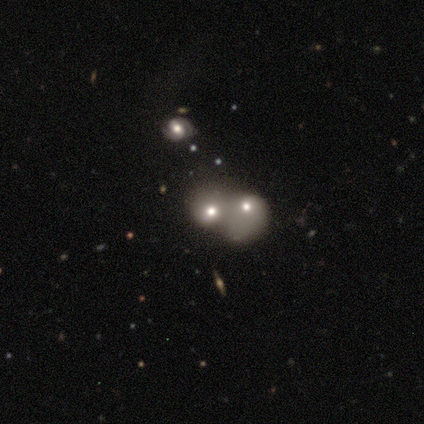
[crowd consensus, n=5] Smooth or featured? smooth (80%)
How rounded? round (100%)
Merging? merger (80%)